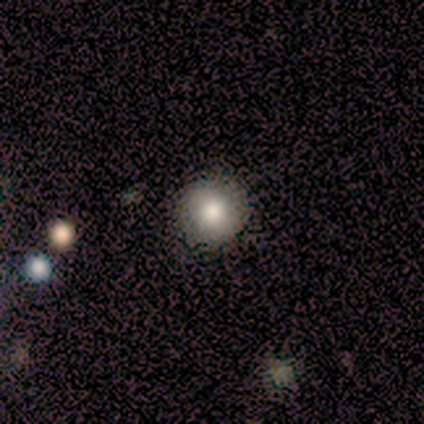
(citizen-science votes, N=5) This appears to be a smooth galaxy with no disk features (80%) that is round (100%). Merging: none (75%).